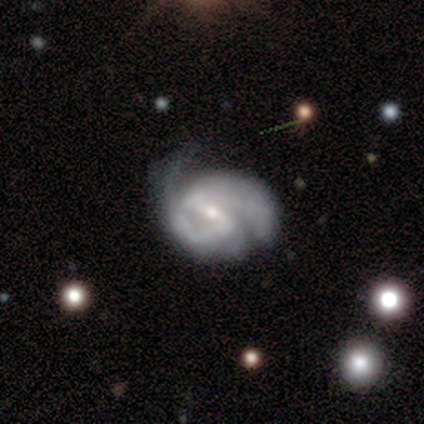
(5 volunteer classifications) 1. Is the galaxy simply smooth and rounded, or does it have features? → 100% featured or disk, 0% smooth, 0% star or artifact.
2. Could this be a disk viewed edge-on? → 100% no, 0% yes.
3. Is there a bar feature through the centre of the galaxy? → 60% weak, 40% strong, 0% no.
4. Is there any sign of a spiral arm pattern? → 100% yes, 0% no.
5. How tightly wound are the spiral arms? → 40% tight (tied), 40% medium (tied), 20% loose.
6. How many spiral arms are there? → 100% 2, 0% 1, 0% 3, 0% 4, 0% more than 4, 0% can't tell.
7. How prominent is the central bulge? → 60% moderate, 40% small, 0% dominant, 0% large, 0% none.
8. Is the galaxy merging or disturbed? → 80% major disturbance, 20% none, 0% minor disturbance, 0% merger.